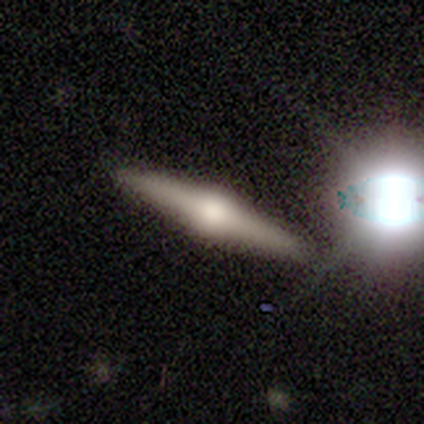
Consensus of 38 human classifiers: A featured or disk galaxy (79%) viewed edge-on (100%) with a rounded central bulge (97%). Merging: none (84%).